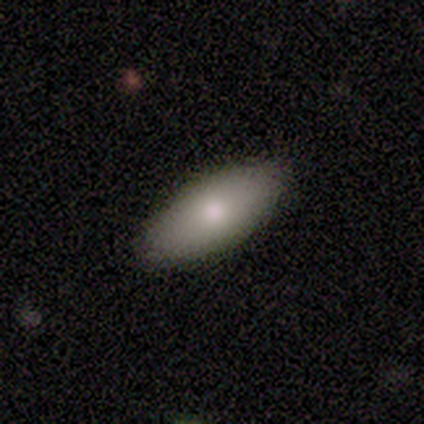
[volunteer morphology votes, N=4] Smooth or featured? smooth (100%)
How rounded? in between (100%)
Merging? none (75%)